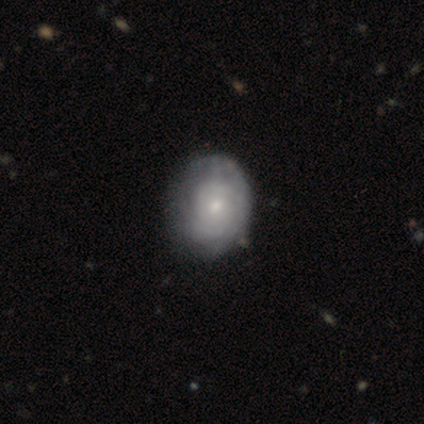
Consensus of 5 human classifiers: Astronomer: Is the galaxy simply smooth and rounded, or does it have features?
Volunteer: featured or disk — 80%.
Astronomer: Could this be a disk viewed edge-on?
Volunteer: no — 100%.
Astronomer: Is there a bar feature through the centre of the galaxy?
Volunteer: no — 75%.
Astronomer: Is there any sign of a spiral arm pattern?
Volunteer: yes — 75%.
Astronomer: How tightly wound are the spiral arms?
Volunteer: tight — 100%.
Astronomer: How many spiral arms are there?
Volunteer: can't tell — 67%.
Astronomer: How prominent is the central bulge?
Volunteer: small — 100%.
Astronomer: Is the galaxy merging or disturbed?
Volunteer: none — 60% (runner-up: minor disturbance, 40%).